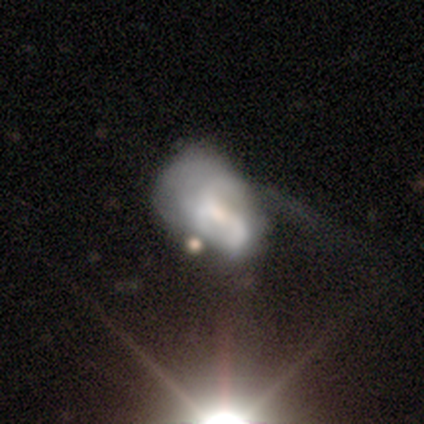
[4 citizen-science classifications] smooth-or-featured: featured or disk: 75% | star or artifact: 25% | smooth: 0%
  disk-edge-on: no: 100% | yes: 0%
    bar: weak: 67% | no: 33% | strong: 0%
    has-spiral-arms: yes: 67% | no: 33%
      spiral-winding: loose: 100% | tight: 0% | medium: 0%
      spiral-arm-count: 2: 50% (tied) | can't tell: 50% (tied) | 1: 0% | 3: 0% | 4: 0% | more than 4: 0%
    bulge-size: large: 67% | small: 33% | dominant: 0% | moderate: 0% | none: 0%
  merging: major disturbance: 67% | none: 33% | minor disturbance: 0% | merger: 0%